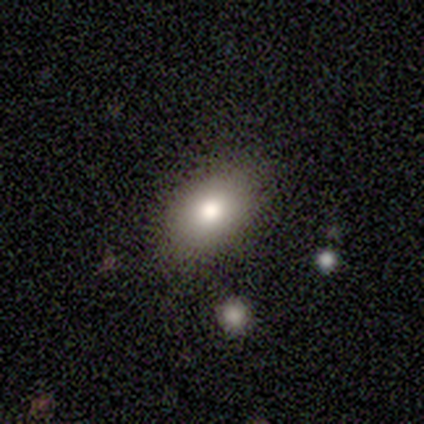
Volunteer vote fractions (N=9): Smooth or featured? 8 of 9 (89%) said smooth. How rounded? 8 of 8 (100%) said in between. Merging? 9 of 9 (100%) said none.